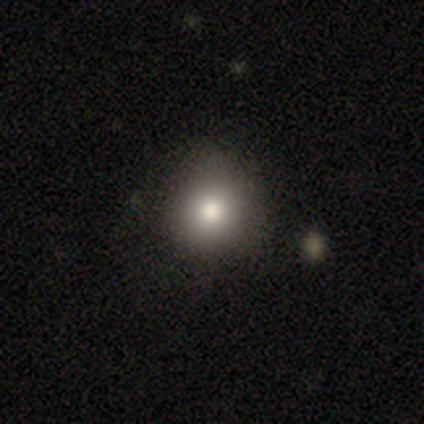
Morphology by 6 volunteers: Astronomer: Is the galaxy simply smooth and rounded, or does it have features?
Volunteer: smooth — 83%.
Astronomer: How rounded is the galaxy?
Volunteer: round — 60% (runner-up: in between, 40%).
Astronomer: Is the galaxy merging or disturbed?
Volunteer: none — 80%.